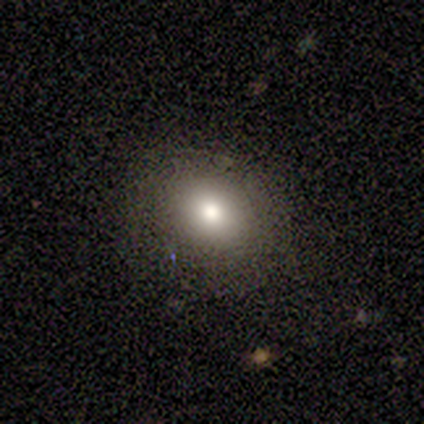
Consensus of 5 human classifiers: Smooth or featured?
  - smooth: 80% *
  - star or artifact: 20%
  - featured or disk: 0%
How rounded?
  - in between: 75% *
  - round: 25%
  - cigar-shaped: 0%
Merging?
  - none: 100% *
  - minor disturbance: 0%
  - major disturbance: 0%
  - merger: 0%